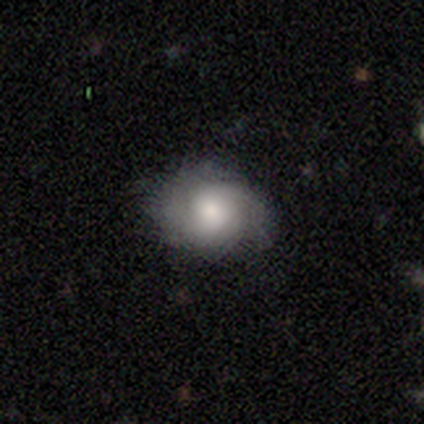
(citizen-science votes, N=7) Morphology: type=smooth (57%); roundness=in between (75%); merging=none (86%).